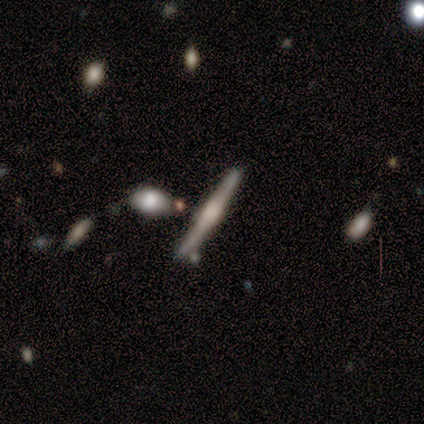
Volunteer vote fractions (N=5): A featured or disk galaxy (80%) viewed edge-on (100%) with a boxy central bulge (100%).

Vote fractions:
- Smooth or featured? featured or disk: 80% / smooth: 20% / star or artifact: 0%
- Edge-on disk? yes: 100% / no: 0%
- Edge-on bulge? boxy: 100% / none: 0% / rounded: 0%
- Merging? none: 80% / merger: 20% / minor disturbance: 0% / major disturbance: 0%